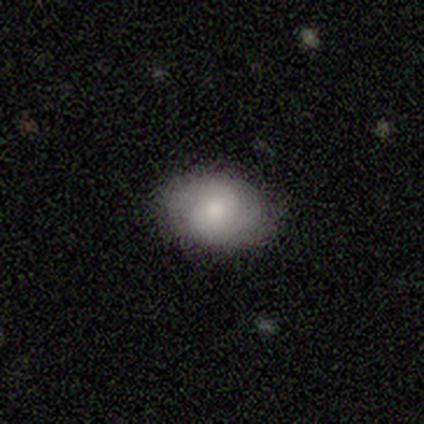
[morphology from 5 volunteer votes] This appears to be a smooth galaxy with no disk features (60%) that is in between round and cigar-shaped (100%). Merging: none (100%).